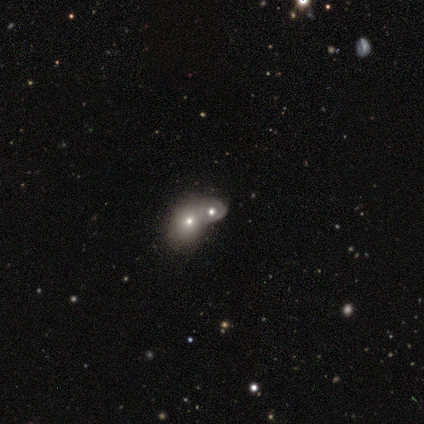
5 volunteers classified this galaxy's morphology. Smooth or featured? 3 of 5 (60%) said featured or disk. Edge-on disk? 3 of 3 (100%) said no. Bar? 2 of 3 (67%) said no. Spiral arms? 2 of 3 (67%) said no. Bulge size? 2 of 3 (67%) said small. Merging? 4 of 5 (80%) said merger.